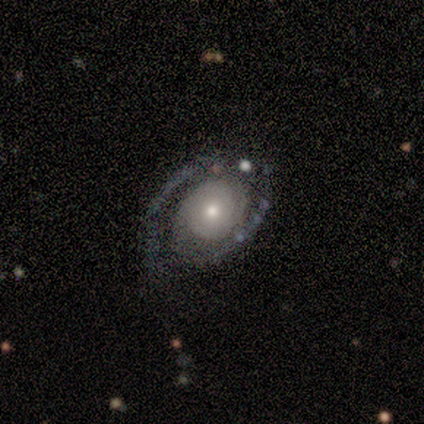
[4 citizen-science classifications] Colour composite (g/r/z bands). It shows a featured or disk galaxy (75%) with no bar (100%), 2 (50%, tied with 4) tight (50%, tied with medium) spiral arms (100%) and a moderate central bulge (50%, tied with small). Merging: none (67%).